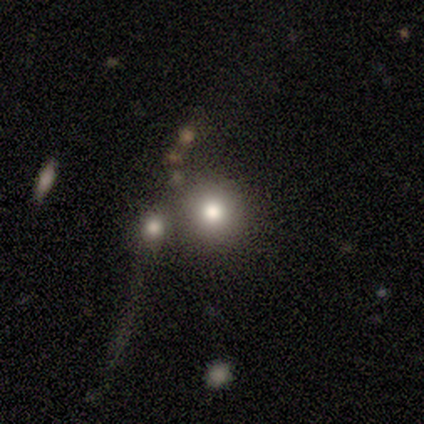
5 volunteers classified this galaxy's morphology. This is clearly a smooth galaxy (100%). How rounded: clearly round (100%). Merging: likely none (60%).